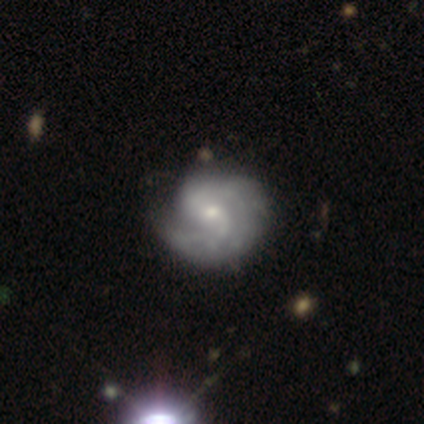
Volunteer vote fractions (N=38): smooth_or_featured: featured or disk (p=0.92) [alt: smooth p=0.08]
disk_edge_on: no (p=0.97) [alt: yes p=0.03]
bar: no (p=0.65) [alt: weak p=0.26]
has_spiral_arms: yes (p=0.97) [alt: no p=0.03]
spiral_winding: tight (p=0.45) [alt: medium p=0.39]
spiral_arm_count: 2 (p=0.64) [alt: can't tell p=0.21]
bulge_size: small (p=0.62) [alt: moderate p=0.26]
merging: none (p=0.58) [alt: minor disturbance p=0.13]